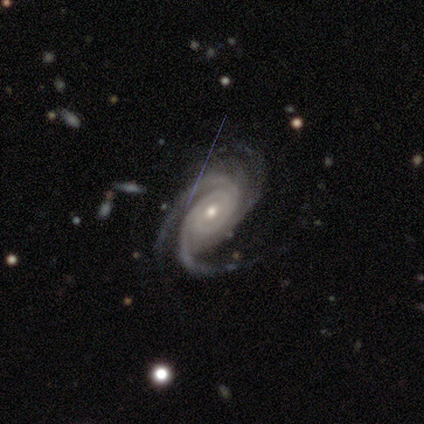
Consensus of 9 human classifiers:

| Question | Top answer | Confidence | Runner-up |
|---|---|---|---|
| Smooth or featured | featured or disk | 78% | star or artifact (22%) |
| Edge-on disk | no | 100% | — |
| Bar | weak | 57% | no (43%) |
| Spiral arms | yes | 100% | — |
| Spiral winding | medium | 71% | tight (29%) |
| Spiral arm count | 3 | 86% | can't tell (14%) |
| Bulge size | small | 71% | moderate (29%) |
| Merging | none | 71% | minor disturbance (29%) |